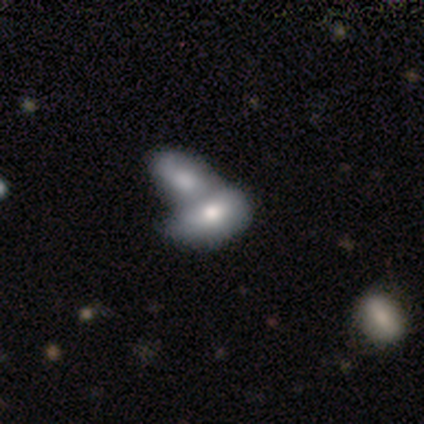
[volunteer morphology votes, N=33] Smooth or featured: smooth — 67% (featured or disk — 24%)
How rounded: in between — 86% (cigar-shaped — 9%)
Merging: merger — 63%